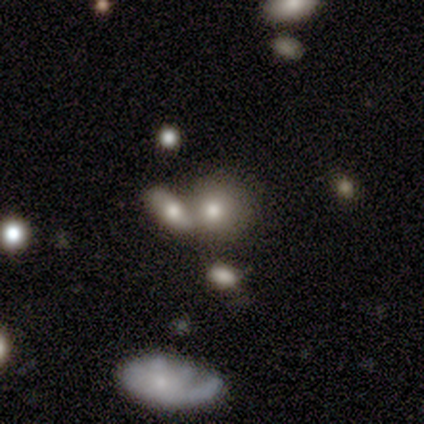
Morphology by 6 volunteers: This appears to be a smooth galaxy with no disk features (100%) that is round (50%, tied with in between). Merging: merger (67%).